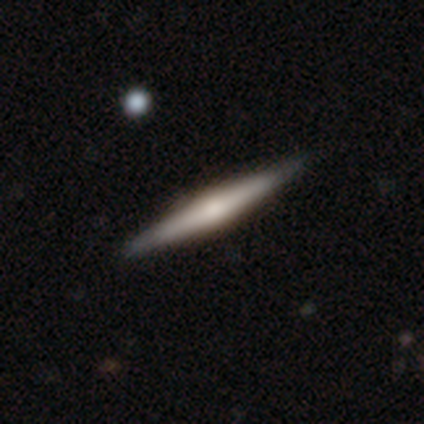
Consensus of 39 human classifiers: Smooth or featured? 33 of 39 (85%) said featured or disk. Edge-on disk? 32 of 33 (97%) said yes. Edge-on bulge? 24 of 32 (75%) said rounded. Merging? 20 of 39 (51%) said none.